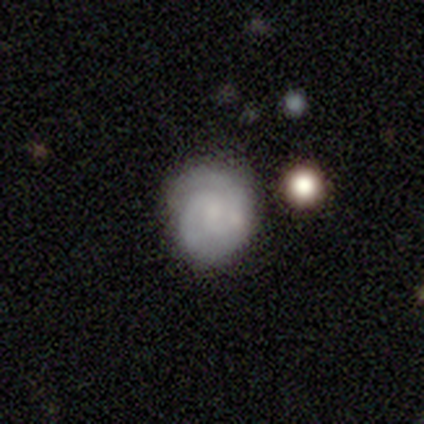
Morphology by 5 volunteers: This is likely a featured or disk galaxy (60%). It is clearly not viewed edge-on (100%). Bar: likely no (67%). Spiral arm pattern: clearly yes (100%). Spiral arm count: clearly 2 (100%). Spiral winding: likely tight (67%). Central bulge: likely small (67%). Merging: clearly none (80%).